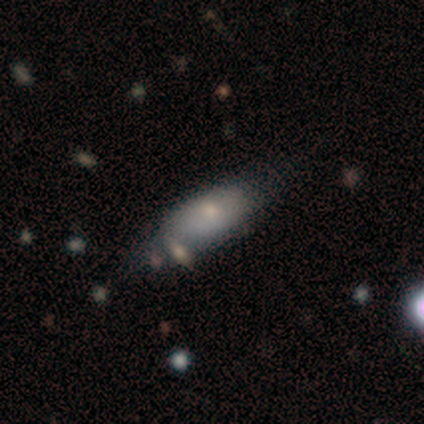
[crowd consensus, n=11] A smooth galaxy with no disk features (82%) that is in between round and cigar-shaped (89%). Merging: none (56%).